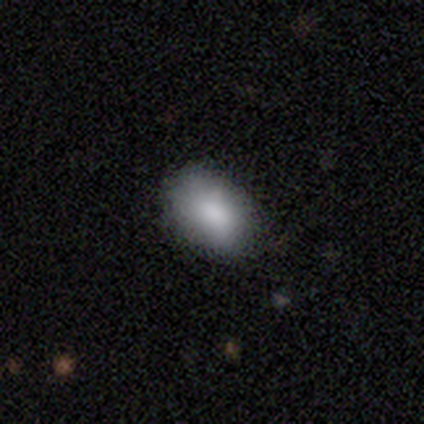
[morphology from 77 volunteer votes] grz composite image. It shows a smooth galaxy with no disk features (91%) that is in between round and cigar-shaped (89%). Merging: none (62%).